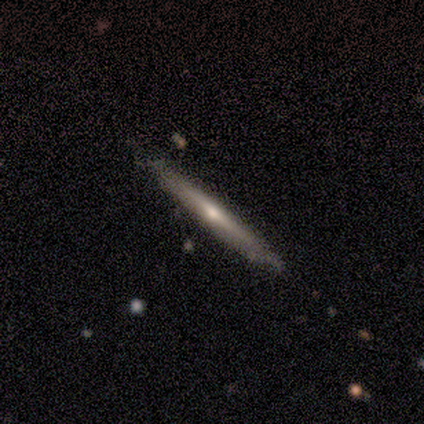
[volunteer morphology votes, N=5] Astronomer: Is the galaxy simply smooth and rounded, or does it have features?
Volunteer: featured or disk — 80%.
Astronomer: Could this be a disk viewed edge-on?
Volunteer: yes — 100%.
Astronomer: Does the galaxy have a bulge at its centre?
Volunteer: none — 50%, tied with rounded at 50%.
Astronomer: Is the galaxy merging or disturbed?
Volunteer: none — 100%.